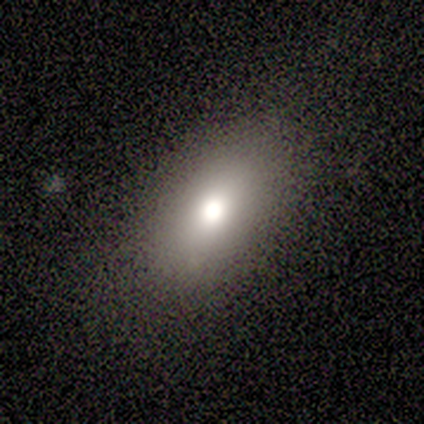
This is likely a smooth galaxy (75%). How rounded: clearly in between (100%). Merging: likely none (75%).